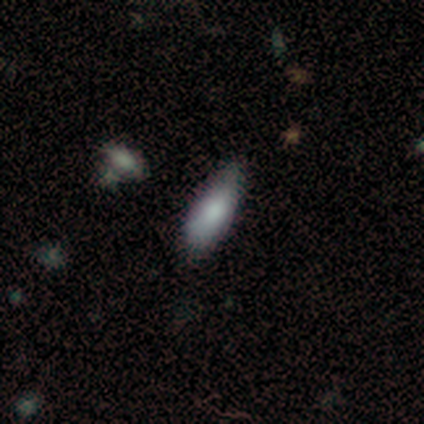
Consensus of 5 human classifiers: A smooth galaxy with no disk features (60%) that is in between round and cigar-shaped (67%).

Vote fractions:
- Smooth or featured? smooth: 60% / featured or disk: 40% / star or artifact: 0%
- How rounded? in between: 67% / cigar-shaped: 33% / round: 0%
- Merging? none: 60% / merger: 40% / minor disturbance: 0% / major disturbance: 0%